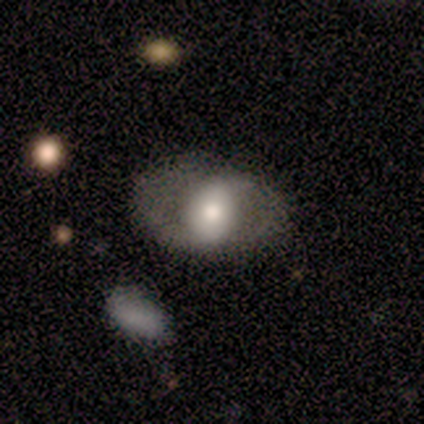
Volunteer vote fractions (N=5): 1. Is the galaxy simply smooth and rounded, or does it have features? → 60% featured or disk, 40% smooth, 0% star or artifact.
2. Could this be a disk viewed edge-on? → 100% no, 0% yes.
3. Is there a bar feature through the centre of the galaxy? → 100% no, 0% strong, 0% weak.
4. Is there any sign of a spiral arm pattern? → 67% no, 33% yes.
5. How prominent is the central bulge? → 33% large (tied), 33% moderate (tied), 33% small (tied), 0% dominant, 0% none.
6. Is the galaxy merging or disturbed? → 60% none, 20% minor disturbance, 20% major disturbance, 0% merger.